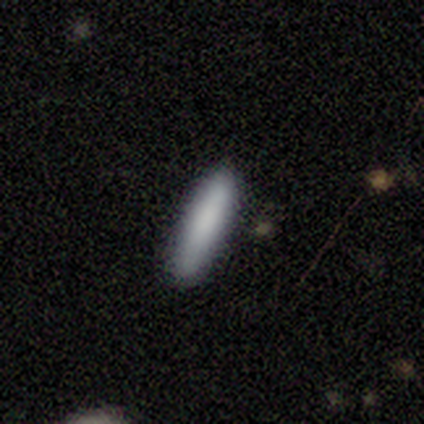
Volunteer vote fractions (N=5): Smooth or featured? smooth (100%)
How rounded? cigar-shaped (80%)
Merging? none (80%)